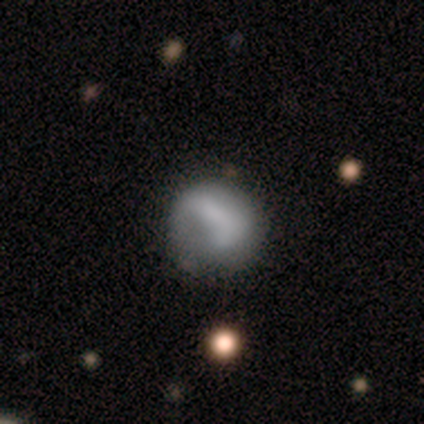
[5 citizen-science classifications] Overall: smooth (60%; featured or disk 40%). How rounded: round (100%). Merging: none (40%, tied with minor disturbance).